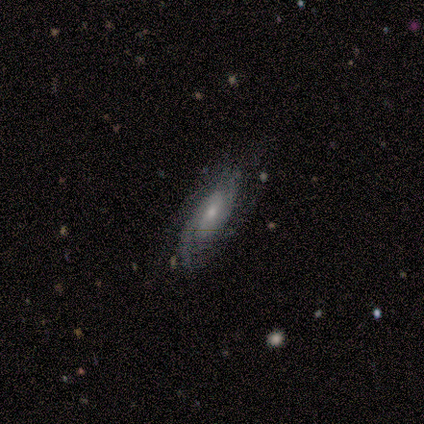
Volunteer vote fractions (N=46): smooth_or_featured: featured or disk (p=0.89) [alt: smooth p=0.07]
disk_edge_on: no (p=0.88) [alt: yes p=0.12]
bar: no (p=0.72) [alt: strong p=0.14]
has_spiral_arms: yes (p=0.86) [alt: no p=0.14]
spiral_winding: tight (p=0.48) [alt: medium p=0.45]
spiral_arm_count: can't tell (p=0.42) [alt: 2 p=0.39]
bulge_size: small (p=0.56) [alt: moderate p=0.31]
merging: none (p=0.77) [alt: minor disturbance p=0.11]